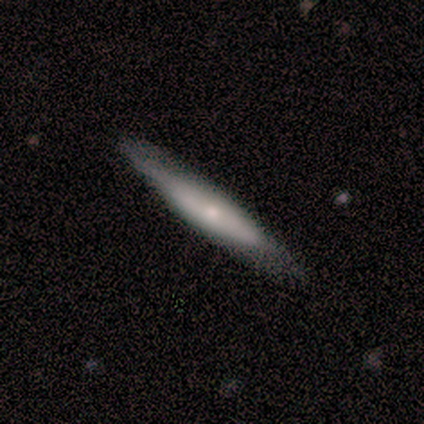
smooth_or_featured: featured or disk (p=0.55) [alt: smooth p=0.27]
disk_edge_on: yes (p=0.83) [alt: no p=0.17]
edge_on_bulge: rounded (p=0.80) [alt: none p=0.20]
merging: none (p=1.00)